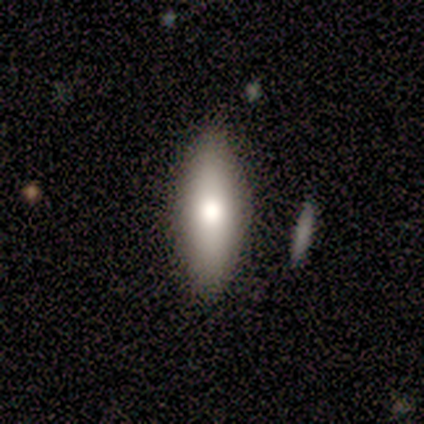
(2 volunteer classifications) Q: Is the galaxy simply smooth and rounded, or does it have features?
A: smooth — 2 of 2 (100%).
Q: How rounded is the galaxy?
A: round — 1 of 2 (50%, tied with in between).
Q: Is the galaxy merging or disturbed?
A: none — 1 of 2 (50%, tied with minor disturbance).